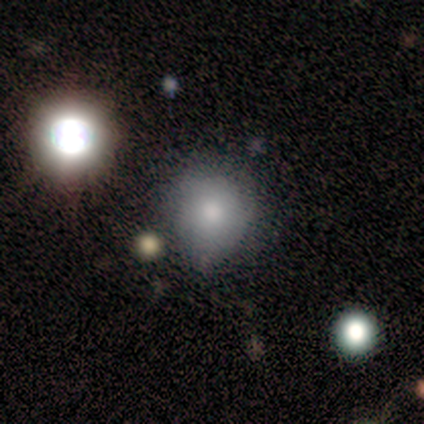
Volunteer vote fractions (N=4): Volunteers were most divided on "smooth or featured": star or artifact: 75%, smooth: 25%, featured or disk: 0%.